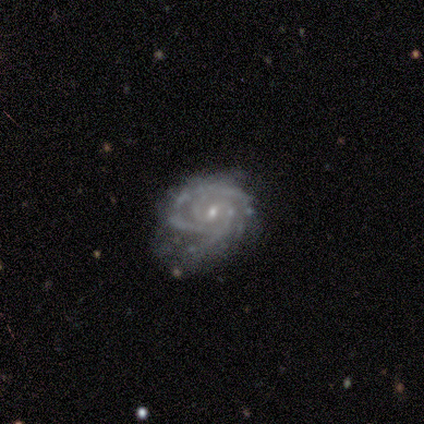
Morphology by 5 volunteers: A featured or disk galaxy (100%) with a weak bar (60%), 2 (25%, tied with 3, 4 and more than 4) tight (50%, tied with medium) spiral arms (80%) and a small central bulge (80%).

Vote fractions:
- Smooth or featured? featured or disk: 100% / smooth: 0% / star or artifact: 0%
- Edge-on disk? no: 100% / yes: 0%
- Bar? weak: 60% / strong: 20% / no: 20%
- Spiral arms? yes: 80% / no: 20%
- Spiral winding? tight: 50% (tied) / medium: 50% (tied) / loose: 0%
- Spiral arm count? 2: 25% (tied) / 3: 25% (tied) / 4: 25% (tied) / more than 4: 25% (tied) / 1: 0% / can't tell: 0%
- Bulge size? small: 80% / moderate: 20% / dominant: 0% / large: 0% / none: 0%
- Merging? none: 80% / minor disturbance: 20% / major disturbance: 0% / merger: 0%